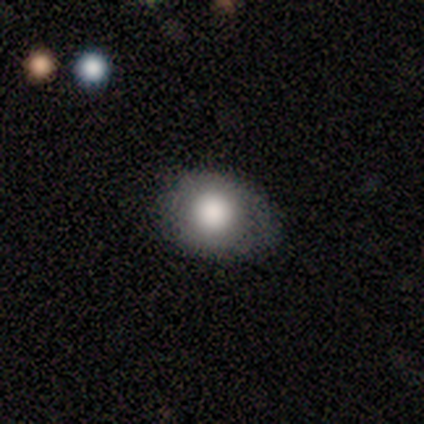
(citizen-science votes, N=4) smooth 100%, featured or disk 0%, star or artifact 0%. Down the decision tree: how rounded — round (75%); merging — none (50%, tied with minor disturbance).